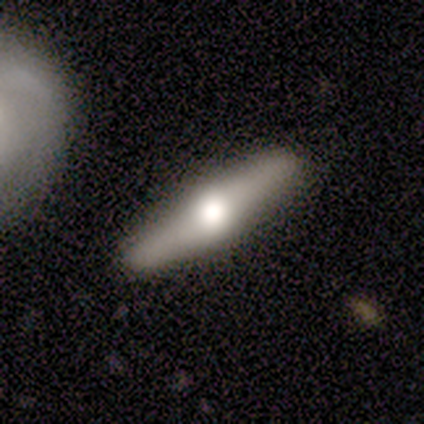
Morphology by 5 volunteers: This appears to be a featured or disk galaxy (60%) viewed edge-on (100%) with a rounded central bulge (100%). Merging: none (100%).